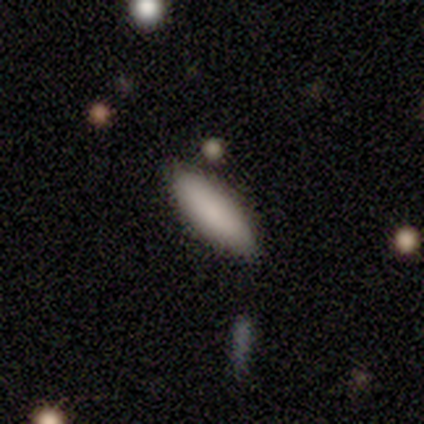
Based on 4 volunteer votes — Volunteers were most divided on "how rounded" (2-way tie): in between: 50%, cigar-shaped: 50%, round: 0%. More confident: smooth or featured — smooth (100%); merging — none (75%).